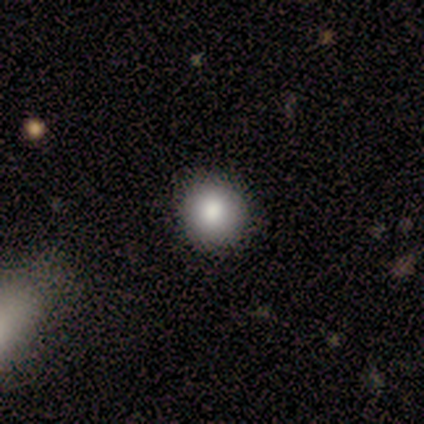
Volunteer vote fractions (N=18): Smooth or featured: smooth — 83% (star or artifact — 17%)
How rounded: round — 100%
Merging: none — 87% (minor disturbance — 13%)